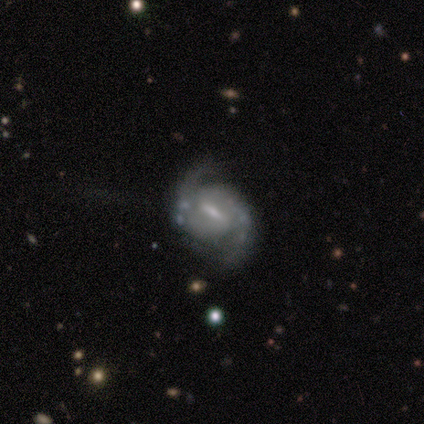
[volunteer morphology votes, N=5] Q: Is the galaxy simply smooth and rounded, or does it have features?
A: featured or disk — 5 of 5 (100%).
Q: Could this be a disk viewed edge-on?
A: no — 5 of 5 (100%).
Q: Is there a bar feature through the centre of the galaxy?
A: weak — 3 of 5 (60%).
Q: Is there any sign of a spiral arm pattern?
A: yes — 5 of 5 (100%).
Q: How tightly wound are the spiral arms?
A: tight — 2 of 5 (40%, tied with medium).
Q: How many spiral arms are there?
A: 2 — 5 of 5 (100%).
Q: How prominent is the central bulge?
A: small — 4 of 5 (80%).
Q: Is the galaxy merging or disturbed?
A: none — 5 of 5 (100%).